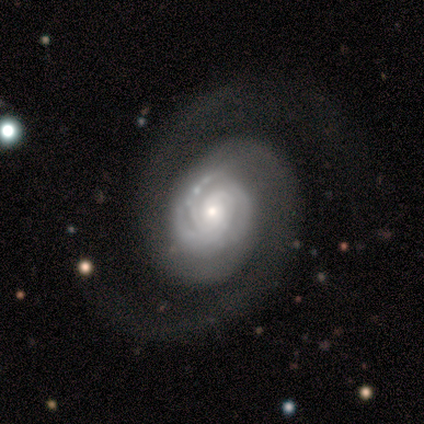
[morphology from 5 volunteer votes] This appears to be a featured or disk galaxy (100%) with no bar (60%), 2 (80%) tight (60%) spiral arms (100%) and a small central bulge (80%). Merging: none (80%).